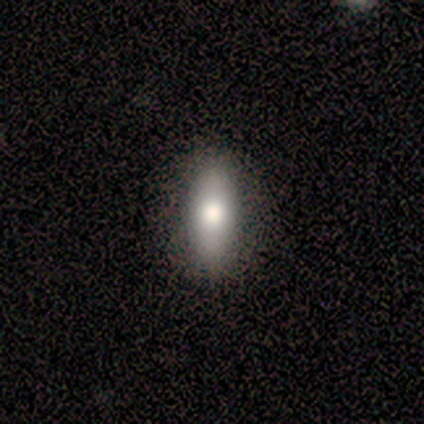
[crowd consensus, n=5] This is clearly a smooth galaxy (80%). How rounded: likely in between (75%). Merging: clearly none (80%).